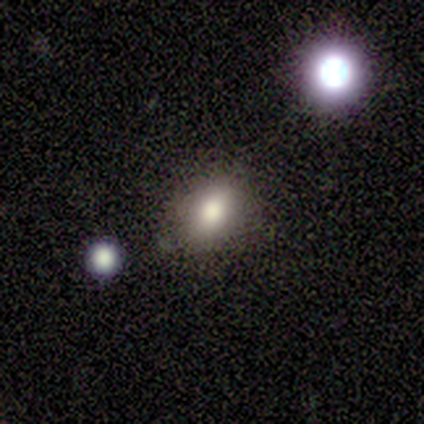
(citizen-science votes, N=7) smooth-or-featured: smooth: 86% | featured or disk: 14% | star or artifact: 0%
  how-rounded: in between: 67% | round: 33% | cigar-shaped: 0%
  merging: none: 86% | minor disturbance: 14% | major disturbance: 0% | merger: 0%